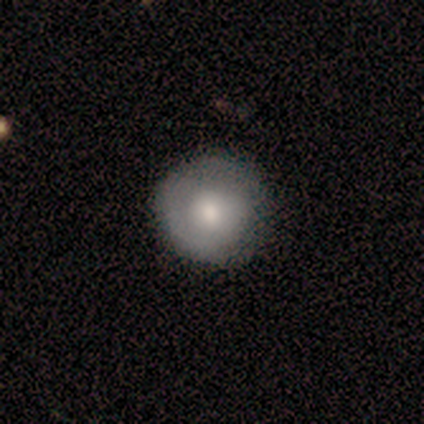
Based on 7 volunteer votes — A featured or disk galaxy (57%) with no bar (75%), no spiral arms (75%) and a moderate central bulge (75%). Merging: none (100%).